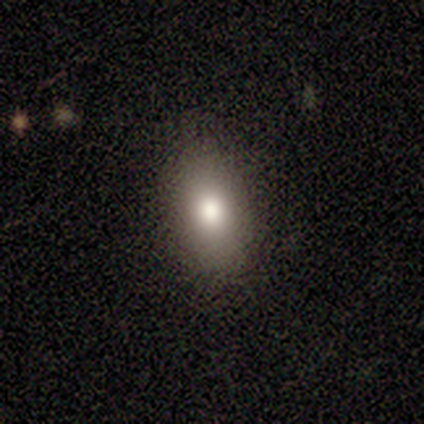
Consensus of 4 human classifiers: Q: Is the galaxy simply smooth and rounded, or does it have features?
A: smooth — 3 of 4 (75%).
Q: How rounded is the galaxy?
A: in between — 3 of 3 (100%).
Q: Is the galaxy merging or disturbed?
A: none — 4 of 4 (100%).